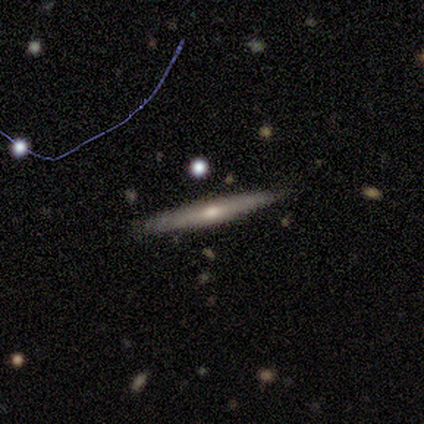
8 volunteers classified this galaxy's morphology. This appears to be a smooth galaxy with no disk features (62%) that is cigar-shaped (100%). Merging: none (100%).